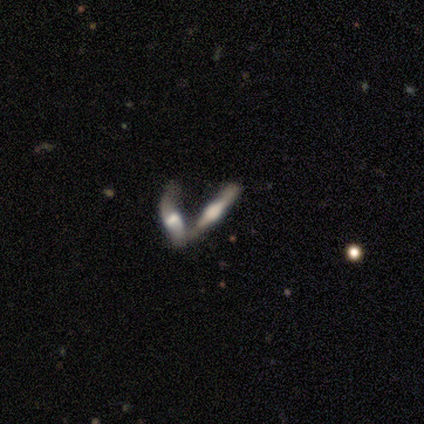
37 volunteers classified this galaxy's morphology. type=featured or disk (81%); edge-on=yes (90%); edge-on bulge=rounded (81%); merging=merger (80%).